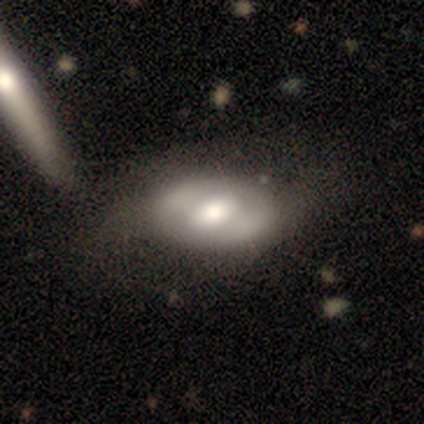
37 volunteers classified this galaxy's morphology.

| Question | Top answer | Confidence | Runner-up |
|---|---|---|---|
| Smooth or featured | featured or disk | 59% | smooth (35%) |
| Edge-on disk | no | 95% | yes (5%) |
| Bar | no | 43% | strong (29%) |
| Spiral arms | no | 76% | yes (24%) |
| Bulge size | moderate | 52% | large (33%) |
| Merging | none | 37% | minor disturbance (11%) |